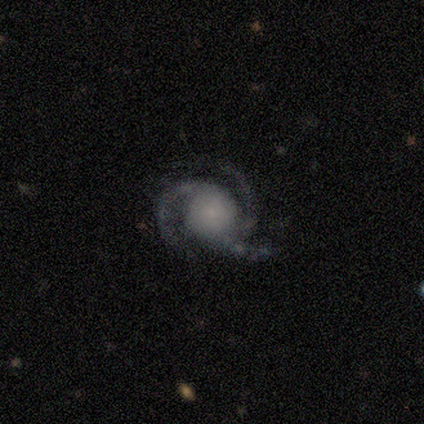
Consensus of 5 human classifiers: Q: Smooth or featured?
A: featured or disk (100%)
Q: Edge-on disk?
A: no (100%)
Q: Bar?
A: no (100%)
Q: Spiral arms?
A: yes (100%)
Q: Spiral winding?
A: tight (60%); runner-up: medium (40%)
Q: Spiral arm count?
A: 3 (60%); runner-up: 2 (20%)
Q: Bulge size?
A: small (60%); runner-up: large (20%)
Q: Merging?
A: none (80%); runner-up: minor disturbance (20%)